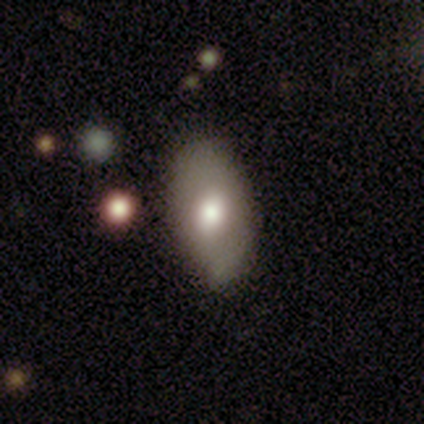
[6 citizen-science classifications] Overall: featured or disk (83%). Edge-on disk: no (100%). Bar: no (80%). Spiral arms: no (60%; yes 40%). Bulge size: moderate (60%; large 40%). Merging: none (83%).